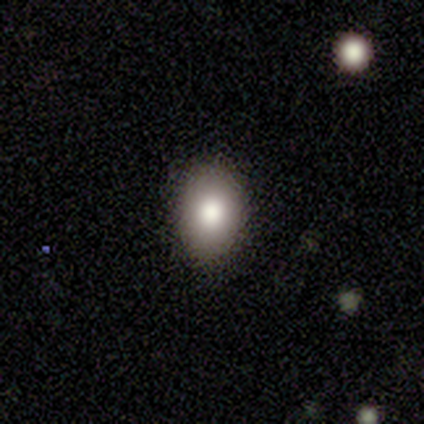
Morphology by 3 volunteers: This appears to be a smooth galaxy with no disk features (67%) that is round (50%, tied with in between). Merging: none (50%, tied with minor disturbance).